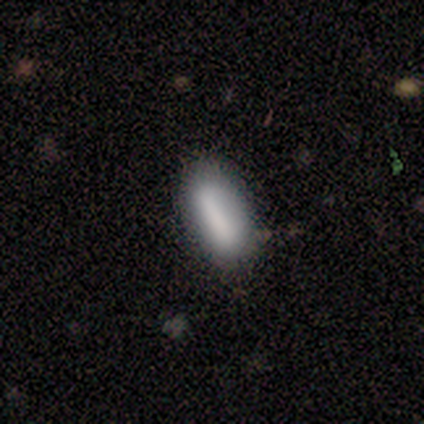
Volunteers were most divided on "how rounded": in between: 80%, cigar-shaped: 20%, round: 0%. More confident: smooth or featured — smooth (100%); merging — none (100%).